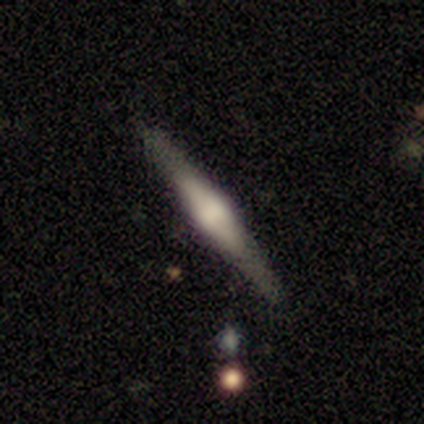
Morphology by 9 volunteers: A featured or disk galaxy (67%) viewed edge-on (100%) with a rounded central bulge (67%).

Vote fractions:
- Smooth or featured? featured or disk: 67% / smooth: 33% / star or artifact: 0%
- Edge-on disk? yes: 100% / no: 0%
- Edge-on bulge? rounded: 67% / boxy: 33% / none: 0%
- Merging? none: 100% / minor disturbance: 0% / major disturbance: 0% / merger: 0%